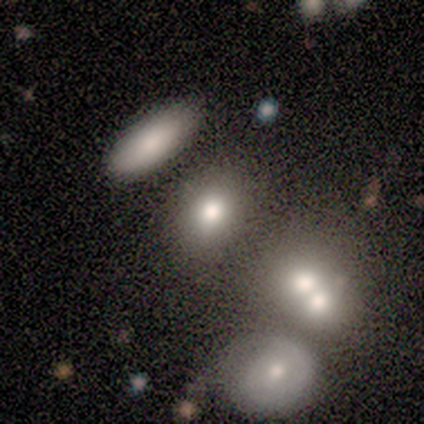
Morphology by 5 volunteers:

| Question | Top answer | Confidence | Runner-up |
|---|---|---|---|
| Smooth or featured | smooth | 100% | — |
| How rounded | in between | 80% | round (20%) |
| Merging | none | 40% | tied: merger (40%) |